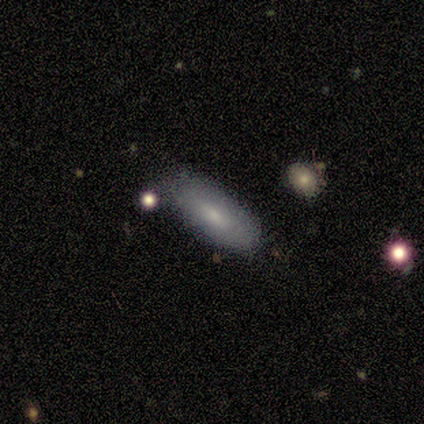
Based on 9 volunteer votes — A smooth galaxy with no disk features (89%) that is in between round and cigar-shaped (75%).

Vote fractions:
- Smooth or featured? smooth: 89% / star or artifact: 11% / featured or disk: 0%
- How rounded? in between: 75% / cigar-shaped: 25% / round: 0%
- Merging? none: 75% / minor disturbance: 25% / major disturbance: 0% / merger: 0%